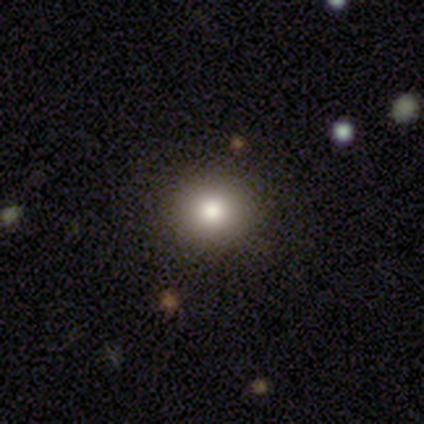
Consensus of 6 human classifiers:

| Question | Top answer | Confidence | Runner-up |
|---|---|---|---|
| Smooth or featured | smooth | 83% | star or artifact (17%) |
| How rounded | round | 80% | in between (20%) |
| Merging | none | 100% | — |